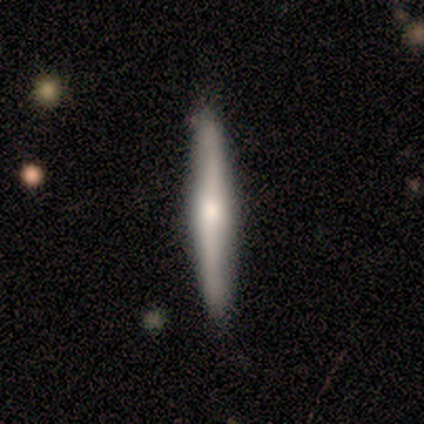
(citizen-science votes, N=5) smooth 60%, featured or disk 40%, star or artifact 0%. Down the decision tree: how rounded — cigar-shaped (100%); merging — none (80%).